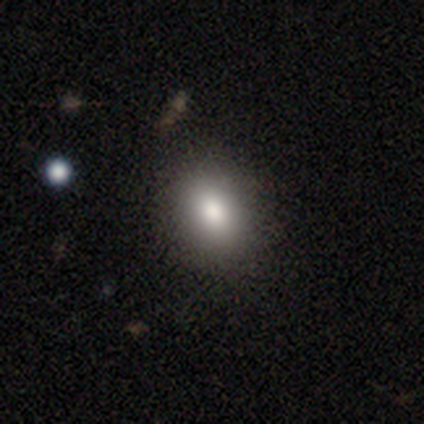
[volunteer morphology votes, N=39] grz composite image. It shows a smooth galaxy with no disk features (77%) that is in between round and cigar-shaped (53%). Merging: none (55%).